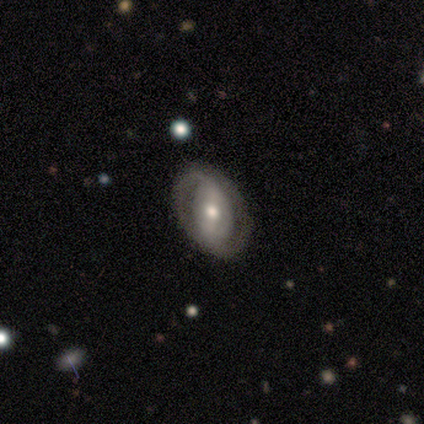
Smooth or featured? featured or disk (89%)
Edge-on disk? no (88%)
Bar? strong (71%)
Spiral arms? yes (86%)
Spiral winding? tight (50%, tied with medium)
Spiral arm count? 2 (83%)
Bulge size? moderate (86%)
Merging? none (100%)